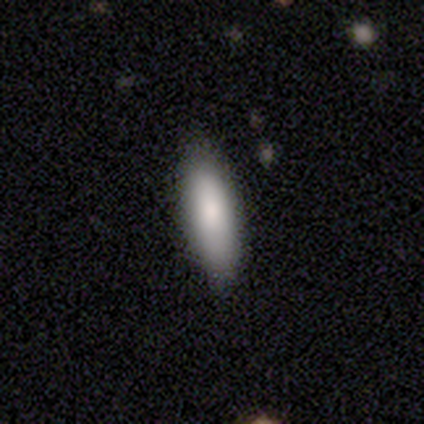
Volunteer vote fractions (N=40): A smooth galaxy with no disk features (90%) that is in between round and cigar-shaped (50%, tied with cigar-shaped).

Vote fractions:
- Smooth or featured? smooth: 90% / featured or disk: 5% / star or artifact: 5%
- How rounded? in between: 50% (tied) / cigar-shaped: 50% (tied) / round: 0%
- Merging? none: 76% / minor disturbance: 18% / merger: 5% / major disturbance: 0%